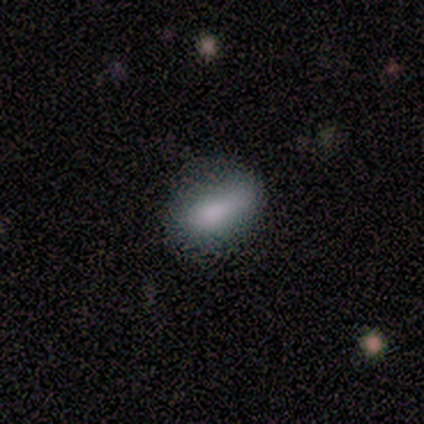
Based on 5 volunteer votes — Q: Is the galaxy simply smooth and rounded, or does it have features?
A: smooth — 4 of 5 (80%).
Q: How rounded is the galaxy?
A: in between — 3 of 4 (75%).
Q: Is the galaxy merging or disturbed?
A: none — 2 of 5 (40%, tied with minor disturbance).